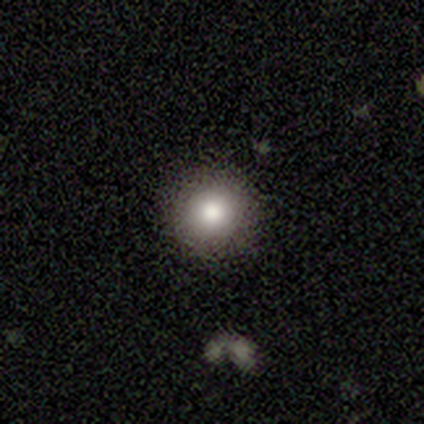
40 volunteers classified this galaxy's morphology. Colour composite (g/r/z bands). It shows a smooth galaxy with no disk features (80%) that is round (94%). Merging: none (89%).